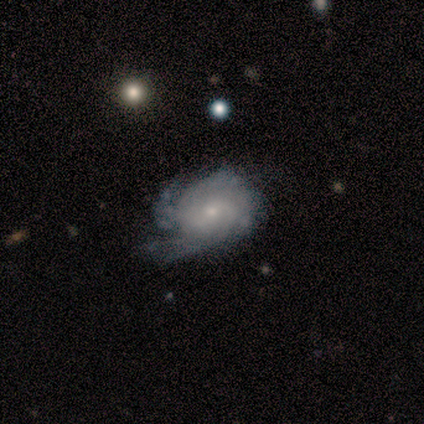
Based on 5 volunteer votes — smooth_or_featured: featured or disk (p=1.00)
disk_edge_on: no (p=1.00)
bar: no (p=1.00)
has_spiral_arms: yes (p=0.80) [alt: no p=0.20]
spiral_winding: tight (p=1.00)
spiral_arm_count: can't tell (p=0.50) [alt: 3 p=0.25]
bulge_size: small (p=0.80) [alt: moderate p=0.20]
merging: none (p=0.60) [alt: minor disturbance p=0.40]